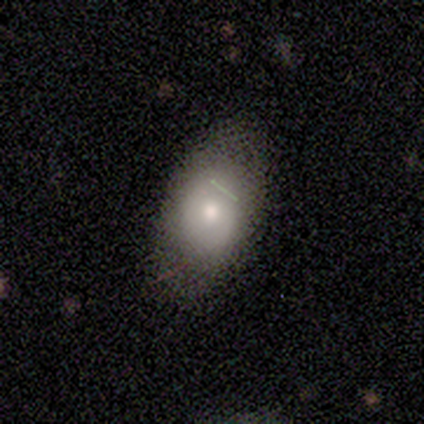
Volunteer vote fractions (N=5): Q: Smooth or featured?
A: smooth (80%); runner-up: featured or disk (20%)
Q: How rounded?
A: in between (75%); runner-up: round (25%)
Q: Merging?
A: none (80%); runner-up: minor disturbance (20%)